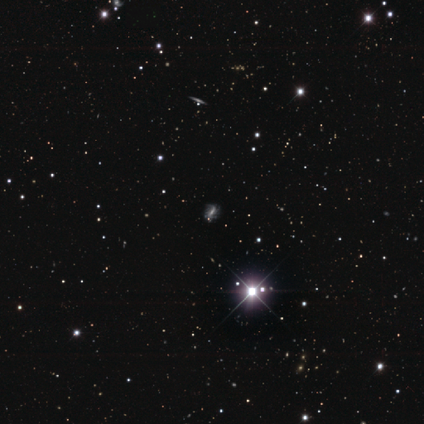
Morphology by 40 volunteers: This is possibly a star or artifact rather than a galaxy (52%).